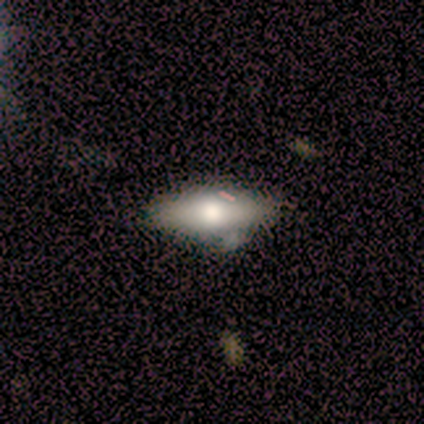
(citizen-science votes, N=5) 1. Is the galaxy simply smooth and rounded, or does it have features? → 80% smooth, 20% featured or disk, 0% star or artifact.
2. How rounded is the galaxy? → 50% in between (tied), 50% cigar-shaped (tied), 0% round.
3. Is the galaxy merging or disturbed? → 60% none, 40% minor disturbance, 0% major disturbance, 0% merger.